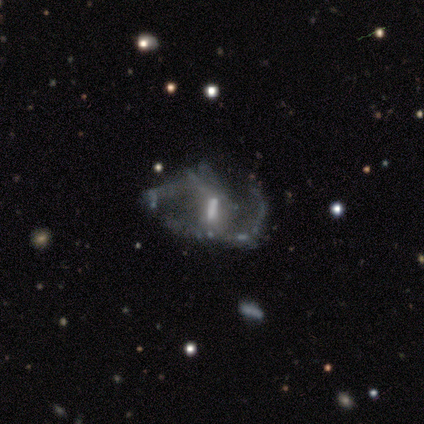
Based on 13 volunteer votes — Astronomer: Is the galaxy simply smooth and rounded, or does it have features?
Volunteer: featured or disk — 92%.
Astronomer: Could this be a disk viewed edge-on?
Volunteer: no — 100%.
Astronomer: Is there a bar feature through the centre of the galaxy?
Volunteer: strong — 58%.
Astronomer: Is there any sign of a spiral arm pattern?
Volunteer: yes — 75%.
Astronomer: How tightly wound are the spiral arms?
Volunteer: loose — 56% (runner-up: medium, 44%).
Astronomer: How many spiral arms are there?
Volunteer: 2 — 67%.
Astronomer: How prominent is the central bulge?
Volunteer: moderate — 42% (runner-up: small, 25%).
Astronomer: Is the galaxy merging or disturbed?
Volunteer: major disturbance — 50% (runner-up: none, 42%).